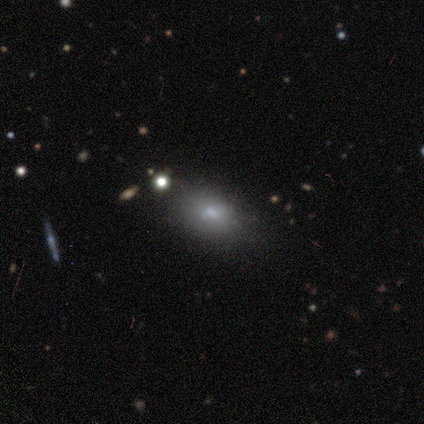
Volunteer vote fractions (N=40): Smooth or featured?
  - smooth: 72% *
  - featured or disk: 18%
  - star or artifact: 10%
How rounded?
  - in between: 90% *
  - round: 10%
  - cigar-shaped: 0%
Merging?
  - none: 69% *
  - minor disturbance: 17%
  - major disturbance: 8%
  - merger: 6%